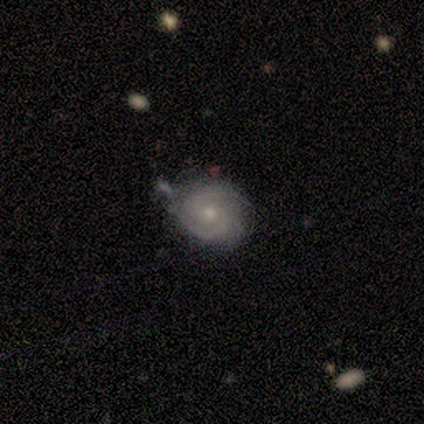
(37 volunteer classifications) smooth-or-featured: featured or disk: 97% | smooth: 3% | star or artifact: 0%
  disk-edge-on: no: 100% | yes: 0%
    bar: no: 69% | weak: 28% | strong: 3%
    has-spiral-arms: yes: 100% | no: 0%
      spiral-winding: tight: 58% | medium: 36% | loose: 6%
      spiral-arm-count: 2: 69% | can't tell: 19% | 3: 11% | 1: 0% | 4: 0% | more than 4: 0%
    bulge-size: small: 69% | moderate: 31% | dominant: 0% | large: 0% | none: 0%
  merging: none: 59% | minor disturbance: 32% | major disturbance: 5% | merger: 3%